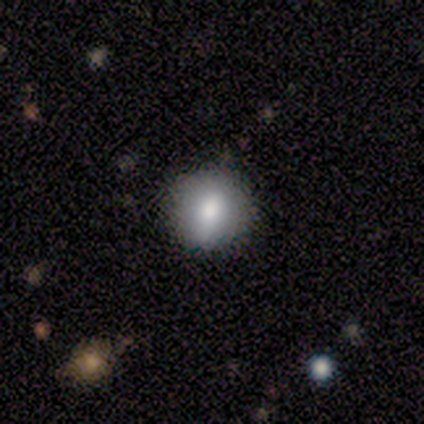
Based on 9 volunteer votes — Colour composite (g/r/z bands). It shows a smooth galaxy with no disk features (56%) that is round (60%). Merging: none (86%).